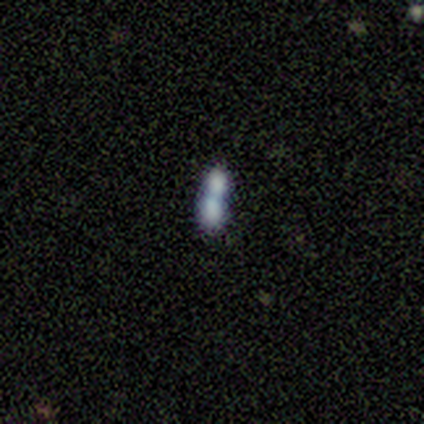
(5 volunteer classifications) Overall: smooth (100%). How rounded: in between (60%; round 40%). Merging: merger (100%).